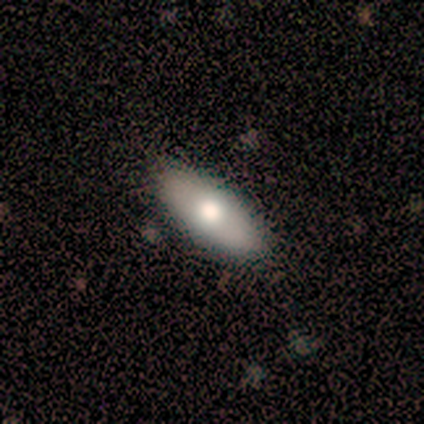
Smooth or featured?
  - smooth: 80% *
  - featured or disk: 20%
  - star or artifact: 0%
How rounded?
  - in between: 75% *
  - cigar-shaped: 25%
  - round: 0%
Merging?
  - none: 100% *
  - minor disturbance: 0%
  - major disturbance: 0%
  - merger: 0%